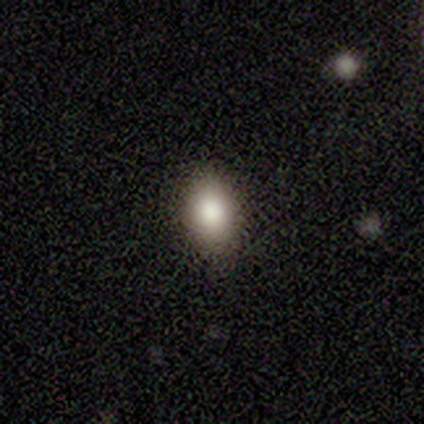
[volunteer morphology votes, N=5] This is clearly a smooth galaxy (100%). How rounded: clearly in between (80%). Merging: clearly none (100%).